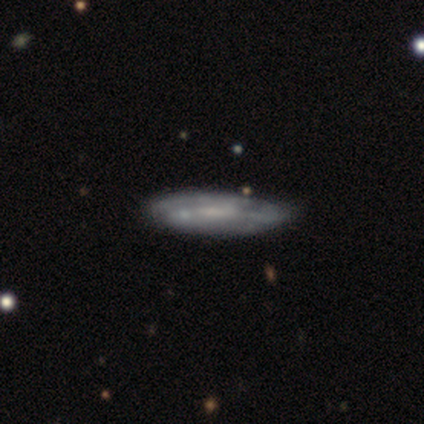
smooth_or_featured: featured or disk (p=0.60) [alt: smooth p=0.40]
disk_edge_on: yes (p=0.67) [alt: no p=0.33]
edge_on_bulge: none (p=0.50) [tied with: rounded p=0.50]
merging: none (p=0.60) [alt: minor disturbance p=0.40]